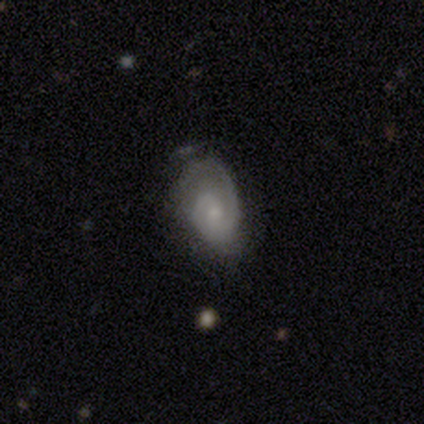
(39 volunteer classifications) Smooth or featured?
  - featured or disk: 67% *
  - smooth: 23%
  - star or artifact: 10%
Edge-on disk?
  - no: 100% *
  - yes: 0%
Bar?
  - no: 69% *
  - weak: 31%
  - strong: 0%
Spiral arms?
  - yes: 96% *
  - no: 4%
Spiral winding?
  - medium: 68% *
  - tight: 28%
  - loose: 4%
Spiral arm count?
  - 2: 56% *
  - 1: 44%
  - 3: 0%
  - 4: 0%
  - more than 4: 0%
  - can't tell: 0%
Bulge size?
  - small: 69% *
  - moderate: 19%
  - none: 8%
  - large: 4%
  - dominant: 0%
Merging?
  - none: 60% *
  - minor disturbance: 23%
  - major disturbance: 17%
  - merger: 0%